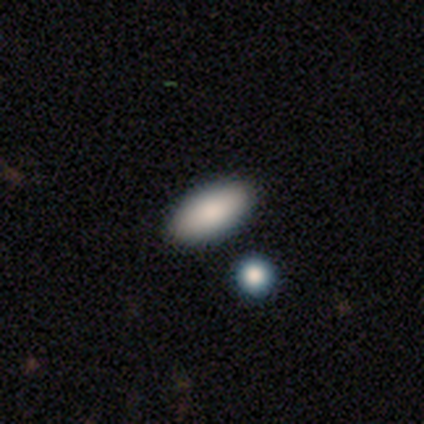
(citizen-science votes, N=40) Smooth or featured? smooth (75%)
How rounded? in between (87%)
Merging? none (88%)